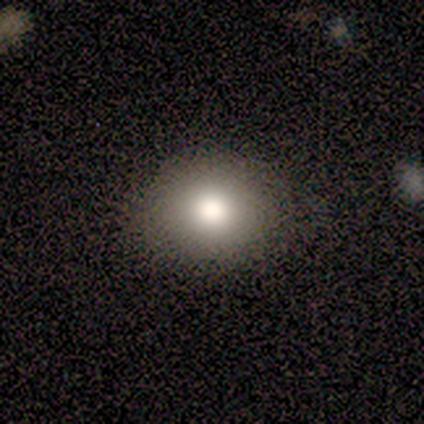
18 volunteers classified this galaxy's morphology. Smooth or featured: smooth — 78% (featured or disk — 17%)
How rounded: round — 71% (in between — 21%)
Merging: none — 88% (minor disturbance — 12%)